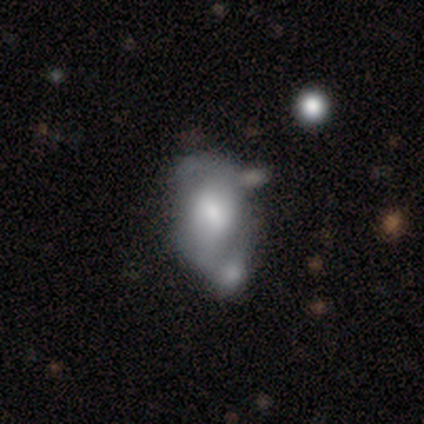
Volunteers were most divided on "merging" (2-way tie): none: 40%, minor disturbance: 40%, merger: 20%, major disturbance: 0%. More confident: how rounded — in between (100%); smooth or featured — smooth (60%).